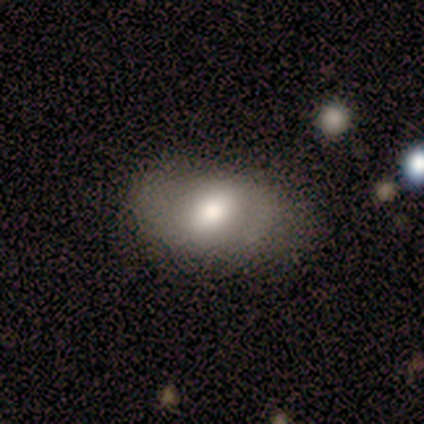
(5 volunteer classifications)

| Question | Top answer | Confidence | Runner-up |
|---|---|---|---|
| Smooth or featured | featured or disk | 60% | smooth (20%) |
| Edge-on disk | no | 67% | yes (33%) |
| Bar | no | 100% | — |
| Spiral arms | yes | 50% | tied: no (50%) |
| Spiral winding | medium | 100% | — |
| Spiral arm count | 2 | 100% | — |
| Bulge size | large | 50% | tied: moderate (50%) |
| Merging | none | 50% | tied: minor disturbance (50%) |